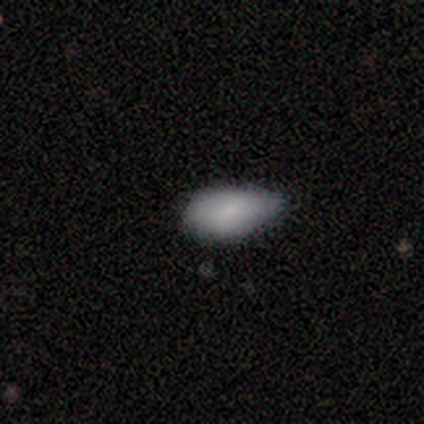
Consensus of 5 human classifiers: smooth 100%, featured or disk 0%, star or artifact 0%. Down the decision tree: how rounded — in between (100%); merging — minor disturbance (80%).